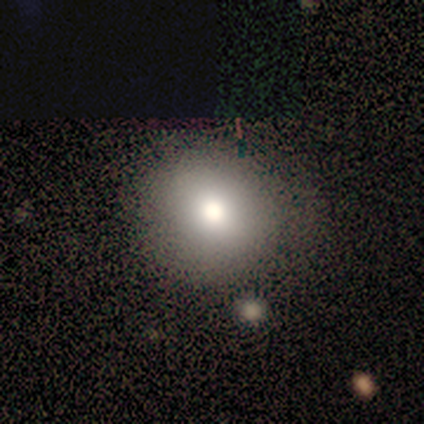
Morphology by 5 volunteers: Volunteers were most divided on "how rounded": round: 75%, in between: 25%, cigar-shaped: 0%. More confident: smooth or featured — smooth (80%); merging — none (80%).